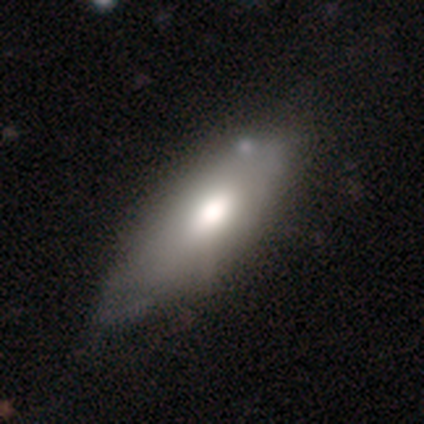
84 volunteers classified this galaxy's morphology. type=smooth (65%); roundness=in between (80%); merging=none (50%).